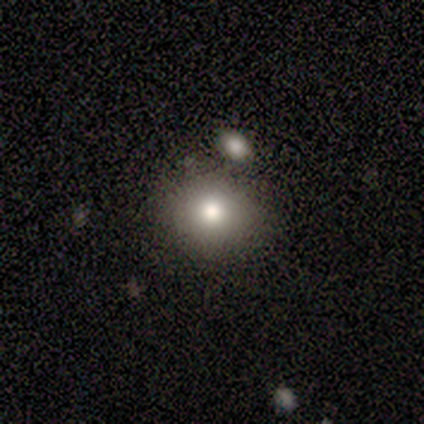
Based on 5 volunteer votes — This is clearly a smooth galaxy (80%). How rounded: likely round (75%). Merging: clearly none (80%).